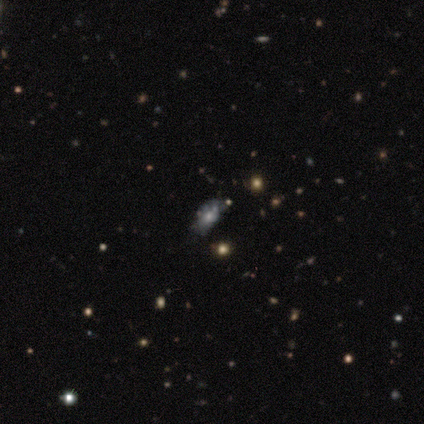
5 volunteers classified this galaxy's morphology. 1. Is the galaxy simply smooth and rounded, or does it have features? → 40% smooth (tied), 40% star or artifact (tied), 20% featured or disk.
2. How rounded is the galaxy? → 100% in between, 0% round, 0% cigar-shaped.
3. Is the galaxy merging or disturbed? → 67% minor disturbance, 33% none, 0% major disturbance, 0% merger.